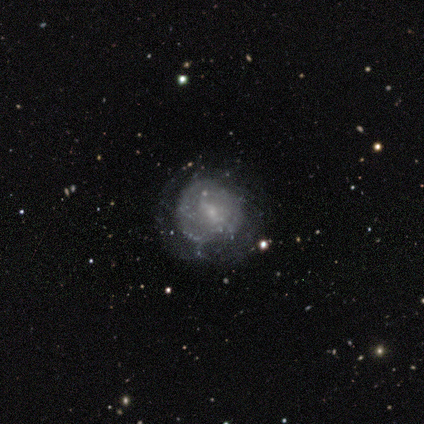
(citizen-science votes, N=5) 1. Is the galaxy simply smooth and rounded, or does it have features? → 40% smooth (tied), 40% star or artifact (tied), 20% featured or disk.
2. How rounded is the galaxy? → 100% round, 0% in between, 0% cigar-shaped.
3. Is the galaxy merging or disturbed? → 67% none, 33% minor disturbance, 0% major disturbance, 0% merger.